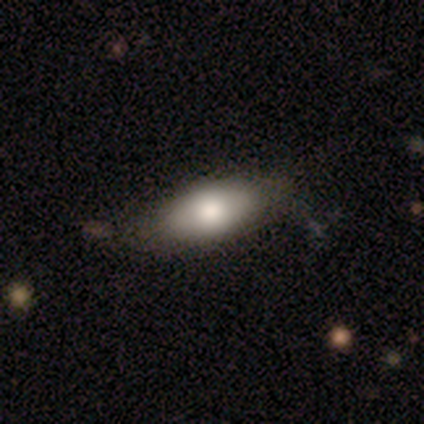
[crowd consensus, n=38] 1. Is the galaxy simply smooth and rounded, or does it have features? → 87% smooth, 13% featured or disk, 0% star or artifact.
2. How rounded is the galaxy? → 100% in between, 0% round, 0% cigar-shaped.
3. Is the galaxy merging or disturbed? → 68% none, 5% minor disturbance, 3% major disturbance, 0% merger.